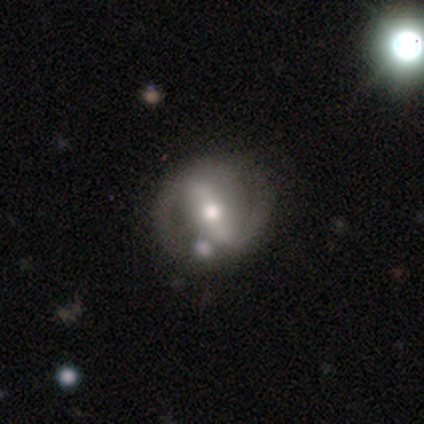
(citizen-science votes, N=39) Q: Smooth or featured?
A: featured or disk (82%); runner-up: smooth (13%)
Q: Edge-on disk?
A: no (97%); runner-up: yes (3%)
Q: Bar?
A: strong (55%); runner-up: weak (32%)
Q: Spiral arms?
A: yes (77%); runner-up: no (23%)
Q: Spiral winding?
A: medium (46%); runner-up: loose (29%)
Q: Spiral arm count?
A: 2 (88%); runner-up: can't tell (8%)
Q: Bulge size?
A: moderate (58%); runner-up: small (23%)
Q: Merging?
A: none (57%); runner-up: minor disturbance (16%)